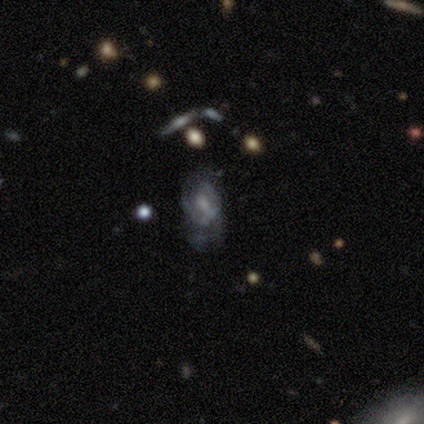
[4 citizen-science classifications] A featured or disk galaxy (75%) with a weak bar (50%, tied with no), 1 (50%, tied with can't tell) medium (50%, tied with loose) spiral arms (100%) and a moderate central bulge (50%, tied with small).

Vote fractions:
- Smooth or featured? featured or disk: 75% / smooth: 25% / star or artifact: 0%
- Edge-on disk? no: 67% / yes: 33%
- Bar? weak: 50% (tied) / no: 50% (tied) / strong: 0%
- Spiral arms? yes: 100% / no: 0%
- Spiral winding? medium: 50% (tied) / loose: 50% (tied) / tight: 0%
- Spiral arm count? 1: 50% (tied) / can't tell: 50% (tied) / 2: 0% / 3: 0% / 4: 0% / more than 4: 0%
- Bulge size? moderate: 50% (tied) / small: 50% (tied) / dominant: 0% / large: 0% / none: 0%
- Merging? none: 75% / minor disturbance: 25% / major disturbance: 0% / merger: 0%